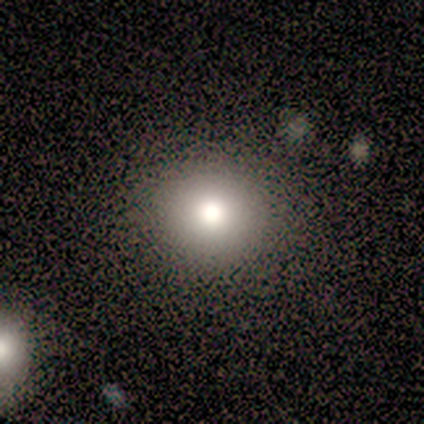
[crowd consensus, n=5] Smooth or featured: smooth — 100%
How rounded: round — 100%
Merging: none — 80% (minor disturbance — 20%)